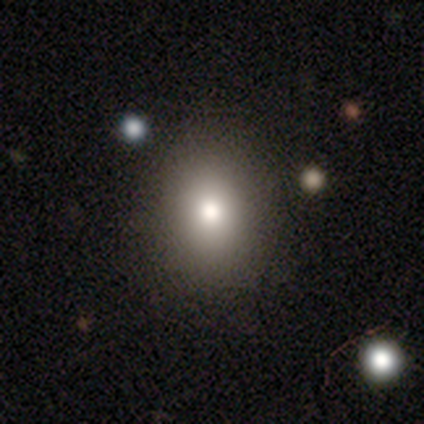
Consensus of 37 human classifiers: smooth-or-featured: smooth: 86% | featured or disk: 8% | star or artifact: 5%
  how-rounded: in between: 66% | round: 34% | cigar-shaped: 0%
  merging: none: 74% | minor disturbance: 3% | major disturbance: 0% | merger: 0%